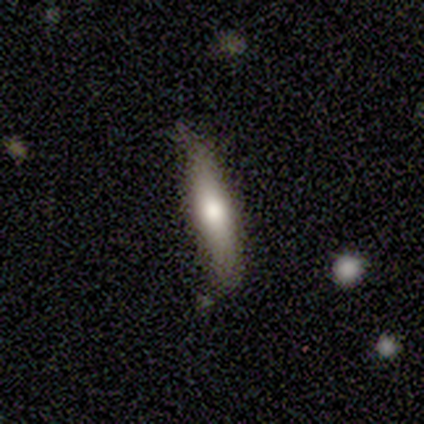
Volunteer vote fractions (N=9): Smooth or featured: smooth — 56% (featured or disk — 44%)
How rounded: cigar-shaped — 100%
Merging: none — 100%